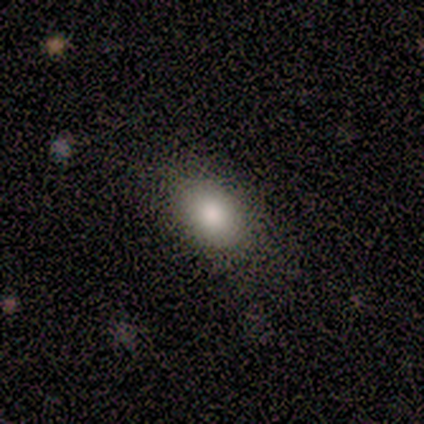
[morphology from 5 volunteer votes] This appears to be a smooth galaxy with no disk features (100%) that is in between round and cigar-shaped (80%). Merging: none (80%).